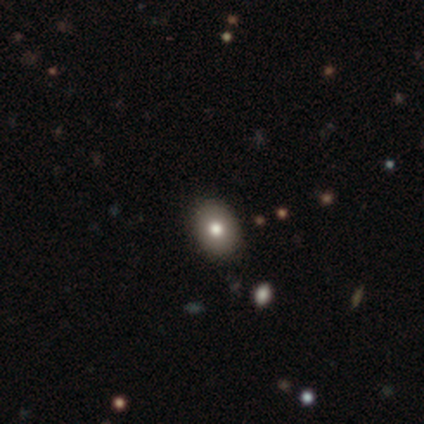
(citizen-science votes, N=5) Smooth or featured? 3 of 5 (60%) said smooth. How rounded? 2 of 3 (67%) said in between. Merging? 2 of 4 (50%) said none.